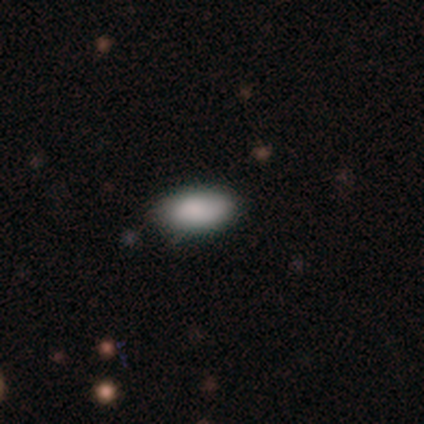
Q: Smooth or featured?
A: smooth (100%)
Q: How rounded?
A: in between (100%)
Q: Merging?
A: none (100%)